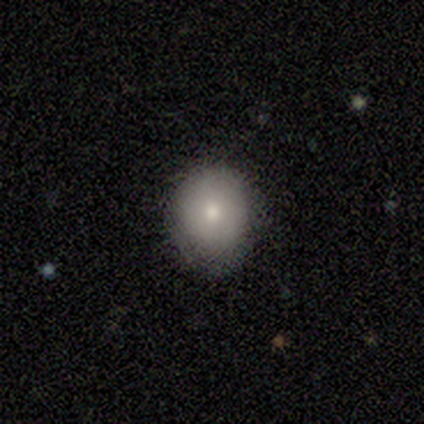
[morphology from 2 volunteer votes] smooth 100%, featured or disk 0%, star or artifact 0%. Down the decision tree: how rounded — round (100%); merging — minor disturbance (100%).